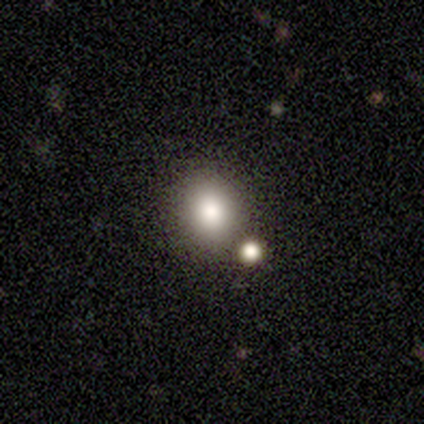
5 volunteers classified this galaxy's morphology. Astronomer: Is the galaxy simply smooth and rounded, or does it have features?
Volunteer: smooth — 80%.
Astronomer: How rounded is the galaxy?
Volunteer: round — 75%.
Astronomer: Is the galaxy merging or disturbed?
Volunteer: none — 100%.